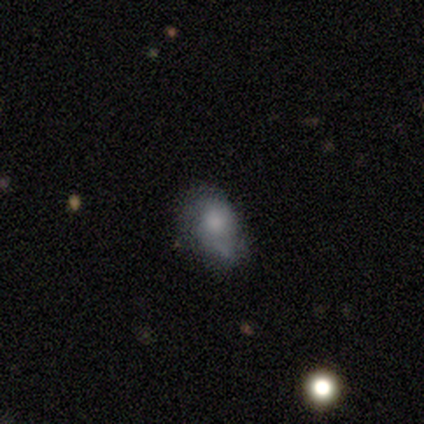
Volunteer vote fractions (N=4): smooth_or_featured: smooth (p=0.75) [alt: star or artifact p=0.25]
how_rounded: in between (p=1.00)
merging: none (p=0.33) [tied with: minor disturbance p=0.33, merger p=0.33]